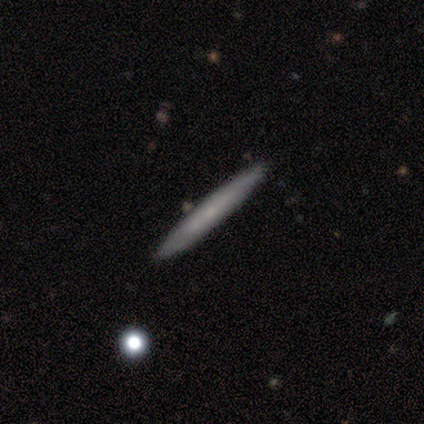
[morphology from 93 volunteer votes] This is possibly a smooth galaxy (58%). How rounded: clearly cigar-shaped (100%). Merging: clearly none (90%).